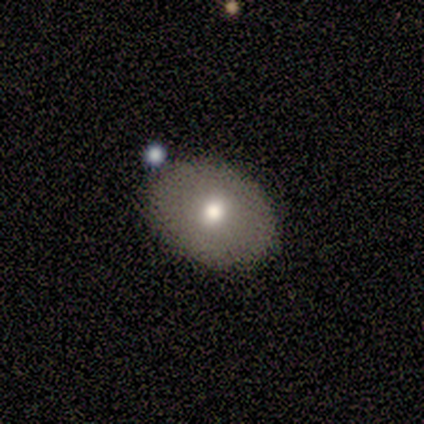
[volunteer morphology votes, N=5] Volunteers were most divided on "how rounded": round: 67%, in between: 33%, cigar-shaped: 0%. More confident: merging — none (75%); smooth or featured — smooth (60%).